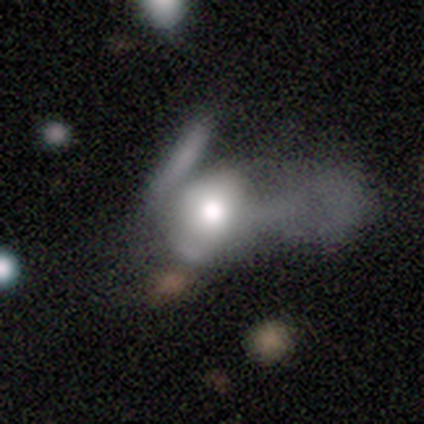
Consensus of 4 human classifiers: A smooth galaxy with no disk features (75%) that is round (67%).

Vote fractions:
- Smooth or featured? smooth: 75% / featured or disk: 25% / star or artifact: 0%
- How rounded? round: 67% / in between: 33% / cigar-shaped: 0%
- Merging? merger: 50% / minor disturbance: 25% / major disturbance: 25% / none: 0%